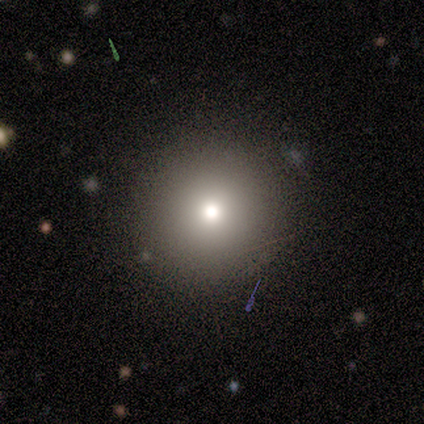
smooth_or_featured: smooth (p=0.50) [alt: featured or disk p=0.33]
how_rounded: round (p=1.00)
merging: none (p=0.80) [alt: major disturbance p=0.20]